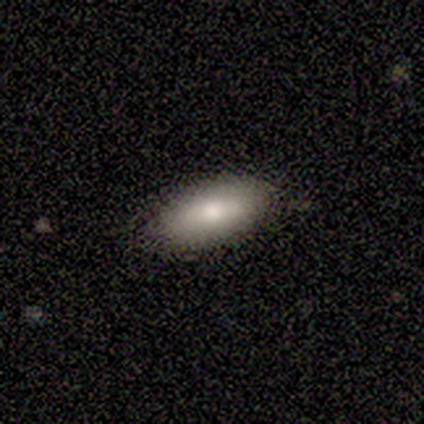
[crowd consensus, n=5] A smooth galaxy with no disk features (80%) that is in between round and cigar-shaped (100%). Merging: none (100%).